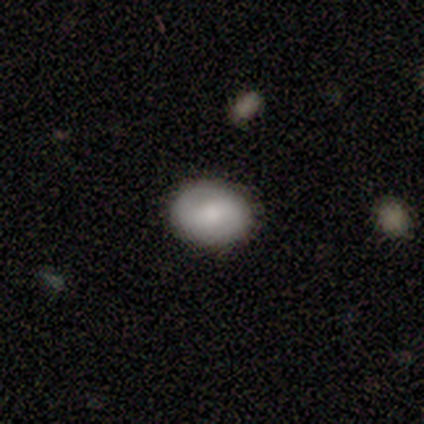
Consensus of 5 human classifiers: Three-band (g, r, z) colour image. It shows a smooth galaxy with no disk features (80%) that is in between round and cigar-shaped (100%). Merging: none (80%).